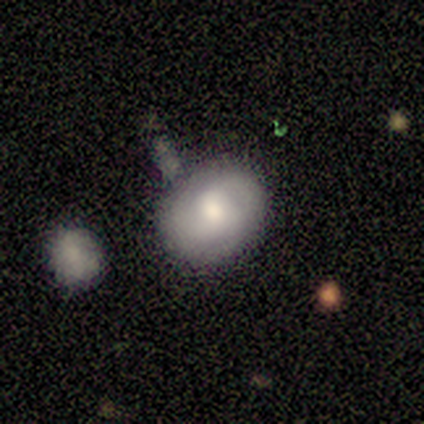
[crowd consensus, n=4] Smooth or featured? 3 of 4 (75%) said smooth. How rounded? 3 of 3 (100%) said in between. Merging? 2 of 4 (50%) said none.